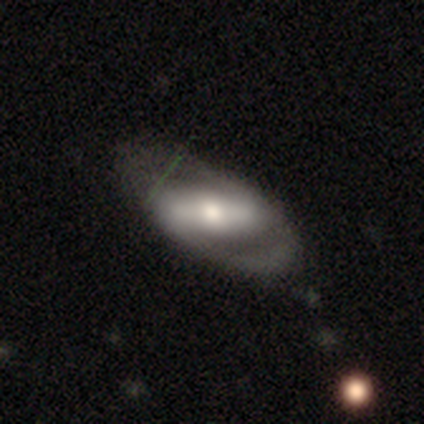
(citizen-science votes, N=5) Smooth or featured: featured or disk — 60% (smooth — 20%)
Edge-on disk: no — 100%
Bar: strong — 100%
Spiral arms: no — 67% (yes — 33%)
Bulge size: moderate — 100%
Merging: none — 50% (minor disturbance — 25%)